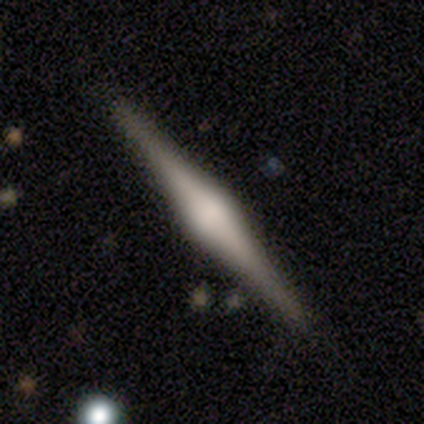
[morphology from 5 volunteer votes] A featured or disk galaxy (80%) viewed edge-on (100%) with a rounded central bulge (75%). Merging: none (100%).